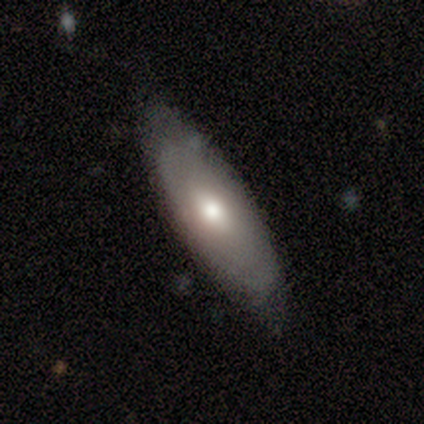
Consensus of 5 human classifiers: This appears to be a smooth galaxy with no disk features (60%) that is in between round and cigar-shaped (67%). Merging: none (80%).